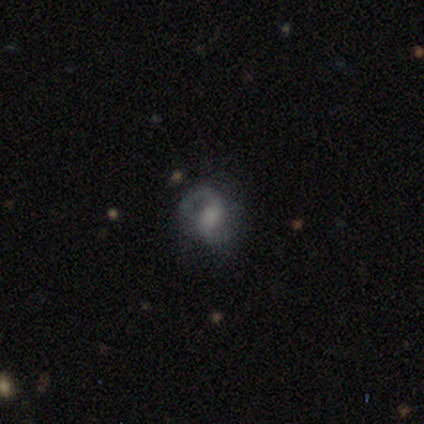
smooth-or-featured: featured or disk: 74% | smooth: 14% | star or artifact: 12%
  disk-edge-on: no: 98% | yes: 2%
    bar: no: 46% | weak: 40% | strong: 13%
    has-spiral-arms: yes: 92% | no: 8%
      spiral-winding: medium: 48% | loose: 35% | tight: 17%
      spiral-arm-count: 2: 88% | 1: 10% | can't tell: 2% | 3: 0% | 4: 0% | more than 4: 0%
    bulge-size: moderate: 33% (tied) | none: 33% (tied) | large: 23% | small: 10% | dominant: 2%
  merging: none: 62% | major disturbance: 24% | minor disturbance: 13% | merger: 2%